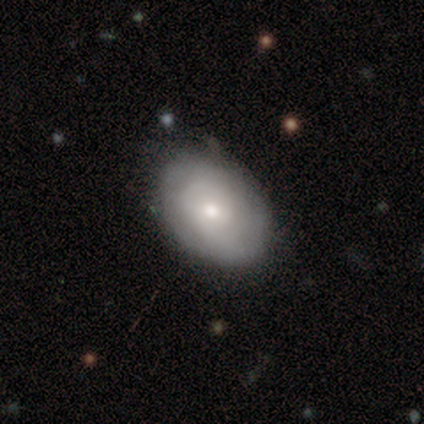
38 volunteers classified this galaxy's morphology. This is possibly a smooth galaxy (53%). How rounded: clearly in between (80%). Merging: likely none (75%).